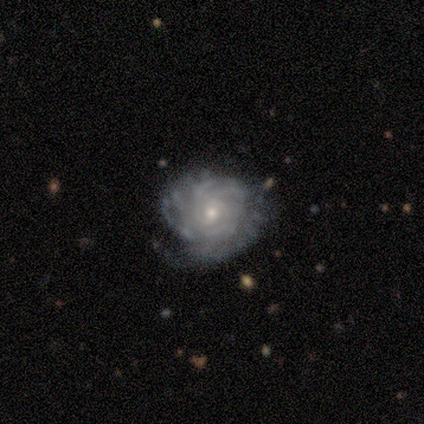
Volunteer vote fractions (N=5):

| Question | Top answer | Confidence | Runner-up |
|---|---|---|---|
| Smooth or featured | featured or disk | 100% | — |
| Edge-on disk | no | 100% | — |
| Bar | no | 60% | strong (20%) |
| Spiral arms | yes | 100% | — |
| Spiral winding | tight | 80% | medium (20%) |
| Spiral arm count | can't tell | 60% | 2 (40%) |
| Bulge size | small | 60% | moderate (40%) |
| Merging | none | 40% | tied: major disturbance (40%) |